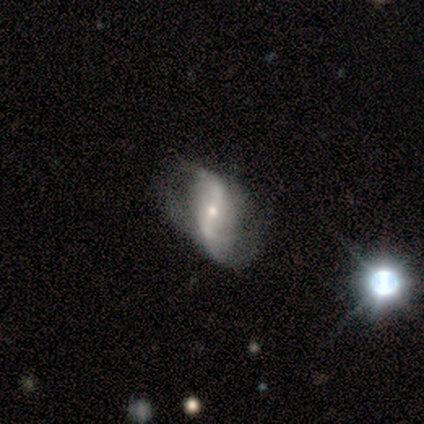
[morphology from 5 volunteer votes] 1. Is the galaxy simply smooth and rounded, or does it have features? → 100% featured or disk, 0% smooth, 0% star or artifact.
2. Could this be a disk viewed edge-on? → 100% no, 0% yes.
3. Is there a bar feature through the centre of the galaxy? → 60% strong, 20% weak, 20% no.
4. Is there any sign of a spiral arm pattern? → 100% yes, 0% no.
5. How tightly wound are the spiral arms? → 100% loose, 0% tight, 0% medium.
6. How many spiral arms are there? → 100% 2, 0% 1, 0% 3, 0% 4, 0% more than 4, 0% can't tell.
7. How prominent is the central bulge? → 60% small, 40% moderate, 0% dominant, 0% large, 0% none.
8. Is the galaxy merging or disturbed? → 60% none, 40% major disturbance, 0% minor disturbance, 0% merger.